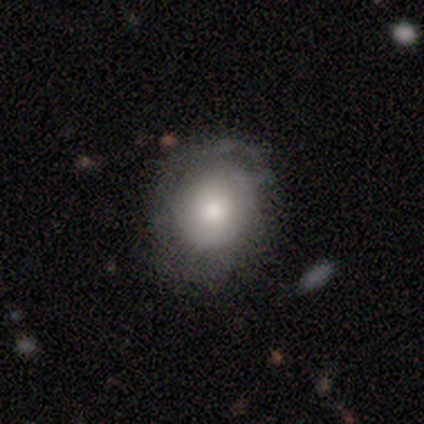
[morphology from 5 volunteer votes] Q: Smooth or featured?
A: smooth (80%); runner-up: featured or disk (20%)
Q: How rounded?
A: round (75%); runner-up: in between (25%)
Q: Merging?
A: none (40%); tied with: minor disturbance (40%)